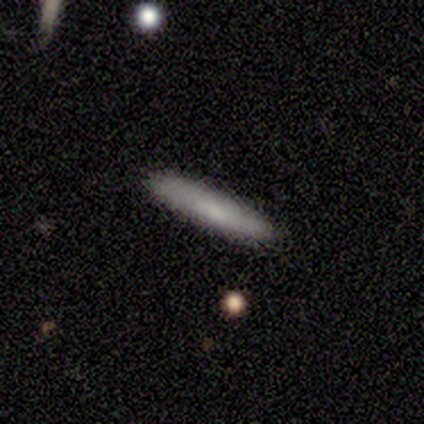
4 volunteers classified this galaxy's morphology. A smooth galaxy with no disk features (50%, tied with featured or disk) that is cigar-shaped (100%). Merging: none (100%).